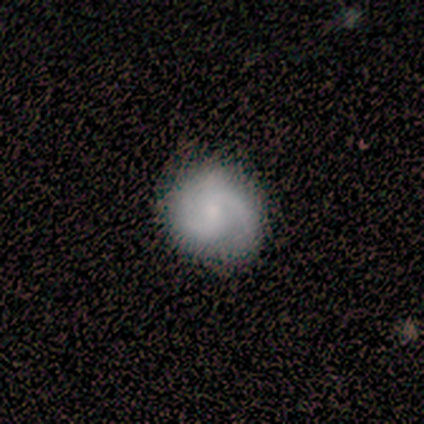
Smooth or featured? featured or disk (75%)
Edge-on disk? no (100%)
Bar? no (62%)
Spiral arms? yes (100%)
Spiral winding? medium (45%)
Spiral arm count? 2 (90%)
Bulge size? small (68%)
Merging? none (80%)